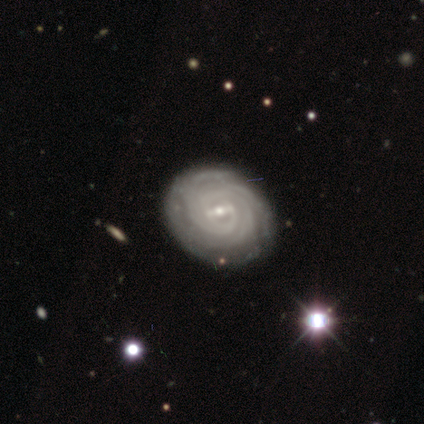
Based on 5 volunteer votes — A featured or disk galaxy (80%) with a strong bar (50%, tied with weak), tight (100%) spiral arms (100%) and a small central bulge (75%). Merging: none (100%).